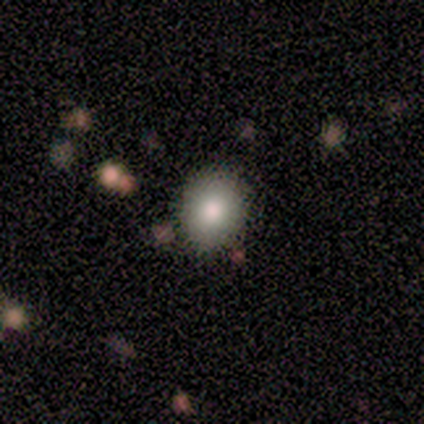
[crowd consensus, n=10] Smooth or featured: smooth — 100%
How rounded: round — 60% (in between — 40%)
Merging: none — 80% (minor disturbance — 10%)